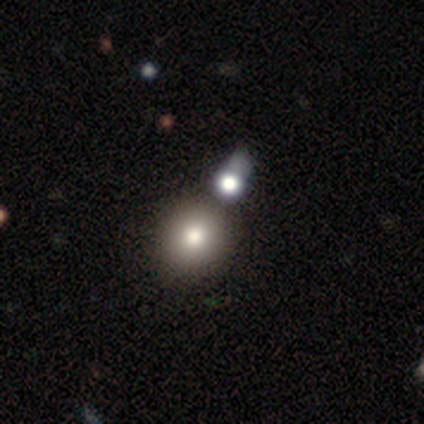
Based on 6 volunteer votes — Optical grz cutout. It shows a smooth galaxy with no disk features (83%) that is round (100%). Merging: none (50%).